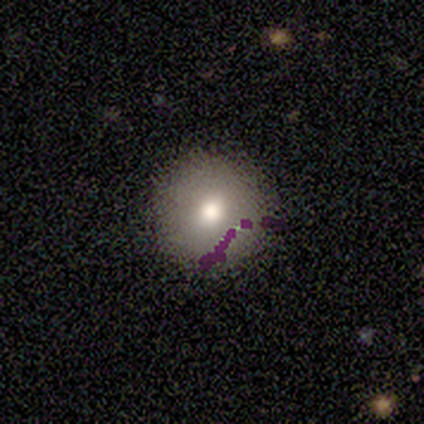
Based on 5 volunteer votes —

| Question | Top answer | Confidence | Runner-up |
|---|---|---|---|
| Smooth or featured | smooth | 100% | — |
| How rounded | round | 80% | in between (20%) |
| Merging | none | 80% | minor disturbance (20%) |